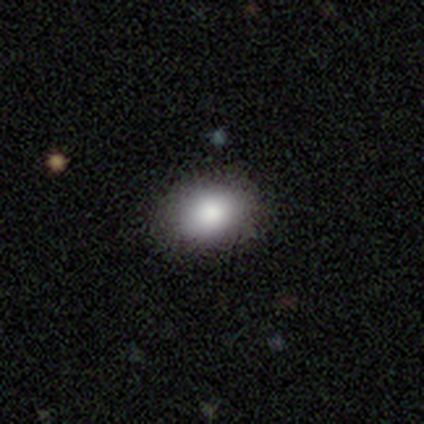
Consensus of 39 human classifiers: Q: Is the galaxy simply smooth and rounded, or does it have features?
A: smooth — 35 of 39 (90%).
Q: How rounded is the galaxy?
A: in between — 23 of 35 (66%).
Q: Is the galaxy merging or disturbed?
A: none — 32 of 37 (86%).